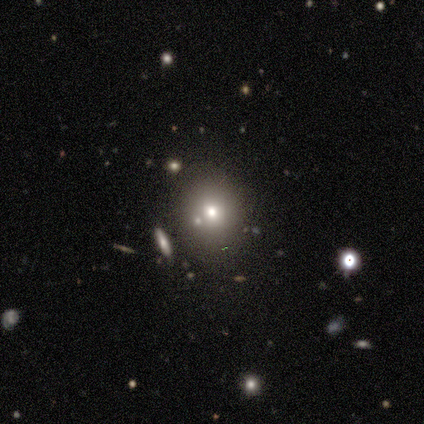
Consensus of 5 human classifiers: A smooth galaxy with no disk features (40%, tied with star or artifact) that is round (50%, tied with in between). Merging: none (100%).